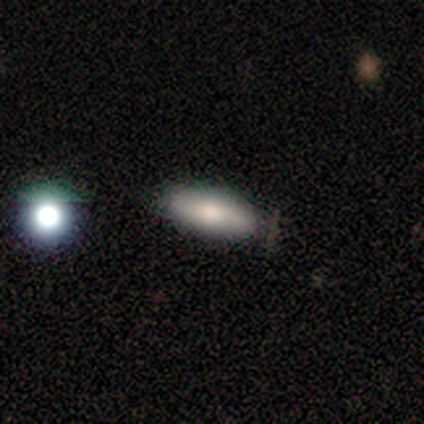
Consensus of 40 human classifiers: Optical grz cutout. It shows a smooth galaxy with no disk features (78%) that is in between round and cigar-shaped (68%). Merging: none (84%).